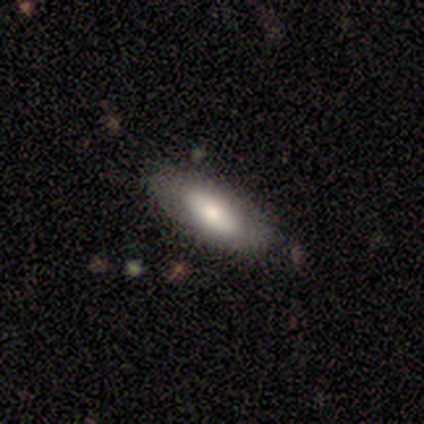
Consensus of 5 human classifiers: Smooth or featured? smooth (80%)
How rounded? in between (75%)
Merging? none (60%)